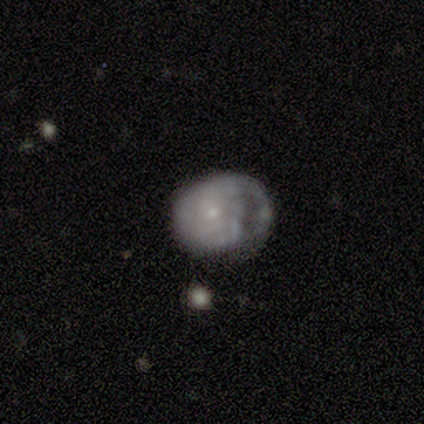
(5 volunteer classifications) Smooth or featured? 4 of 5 (80%) said featured or disk. Edge-on disk? 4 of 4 (100%) said no. Bar? 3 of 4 (75%) said no. Spiral arms? 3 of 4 (75%) said yes. Spiral winding? 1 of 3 (33%, tied with medium and loose) said tight. Spiral arm count? 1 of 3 (33%, tied with 3 and can't tell) said 2. Bulge size? 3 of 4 (75%) said small. Merging? 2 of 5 (40%, tied with major disturbance) said none.